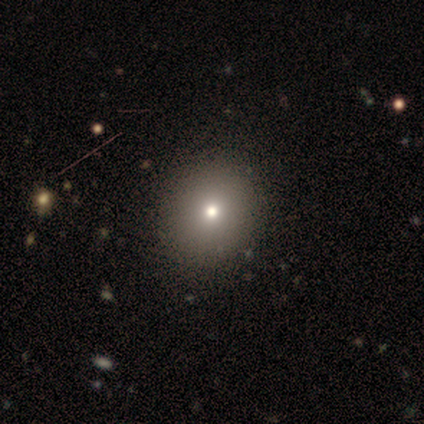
Volunteers were most divided on "smooth or featured" (2-way tie): smooth: 40%, featured or disk: 40%, star or artifact: 20%. More confident: how rounded — round (100%); merging — none (100%).